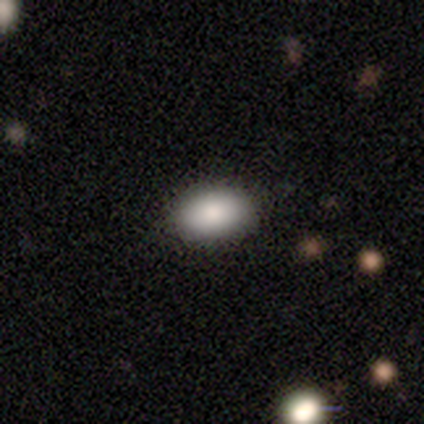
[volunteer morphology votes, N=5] smooth-or-featured: smooth: 80% | star or artifact: 20% | featured or disk: 0%
  how-rounded: in between: 75% | round: 25% | cigar-shaped: 0%
  merging: none: 100% | minor disturbance: 0% | major disturbance: 0% | merger: 0%